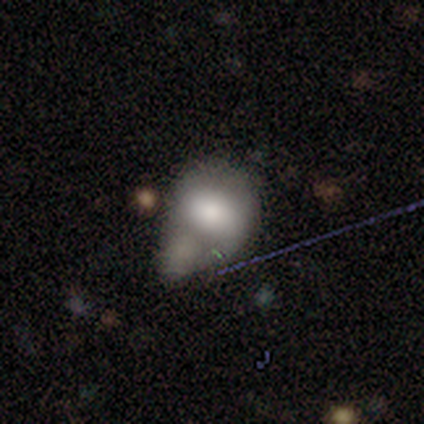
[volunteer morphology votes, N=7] smooth_or_featured: smooth (p=0.57) [alt: featured or disk p=0.29]
how_rounded: in between (p=0.75) [alt: round p=0.25]
merging: minor disturbance (p=0.50) [alt: merger p=0.33]